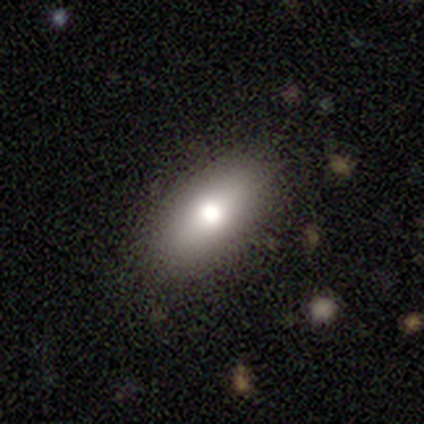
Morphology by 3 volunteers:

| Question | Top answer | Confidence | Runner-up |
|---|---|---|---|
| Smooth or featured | smooth | 33% | tied: featured or disk (33%), star or artifact (33%) |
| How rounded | cigar-shaped | 100% | — |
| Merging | none | 50% | tied: minor disturbance (50%) |